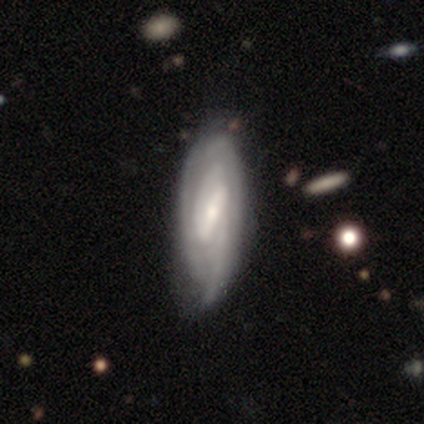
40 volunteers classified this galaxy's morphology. This is clearly a featured or disk galaxy (85%). It is clearly not viewed edge-on (85%). Bar: likely strong (72%). Spiral arm pattern: clearly yes (97%). Spiral arm count: possibly can't tell (46%). Spiral winding: likely tight (71%). Central bulge: possibly small (48%). Merging: marginally none (37%).